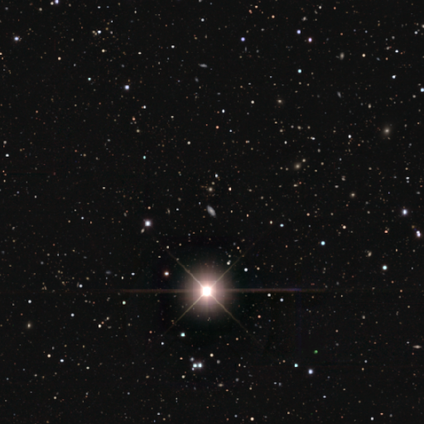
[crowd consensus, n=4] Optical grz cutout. It shows a star or artifact, not a galaxy (75%).